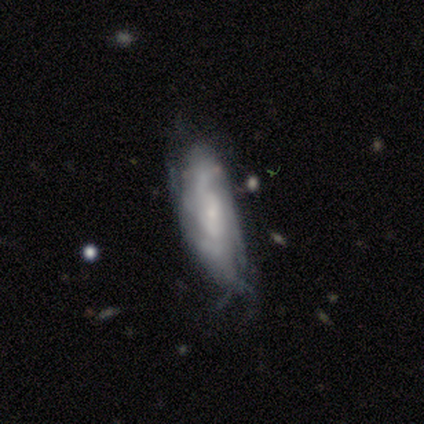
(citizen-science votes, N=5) Morphology: type=smooth (60%); roundness=in between (100%); merging=minor disturbance (50%).